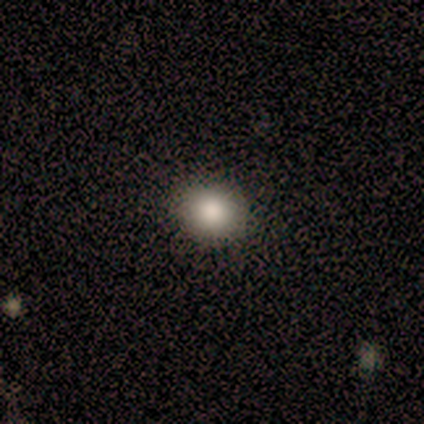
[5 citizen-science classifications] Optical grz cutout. It shows a smooth galaxy with no disk features (60%) that is round (100%). Merging: none (100%).